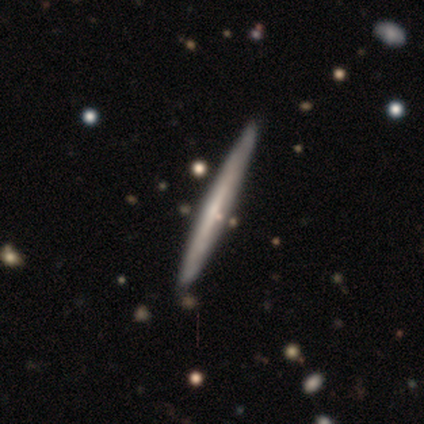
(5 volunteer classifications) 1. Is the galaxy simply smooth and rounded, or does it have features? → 60% featured or disk, 20% smooth, 20% star or artifact.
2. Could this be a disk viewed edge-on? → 100% yes, 0% no.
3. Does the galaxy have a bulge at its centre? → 100% none, 0% boxy, 0% rounded.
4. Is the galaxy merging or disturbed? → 75% none, 25% minor disturbance, 0% major disturbance, 0% merger.